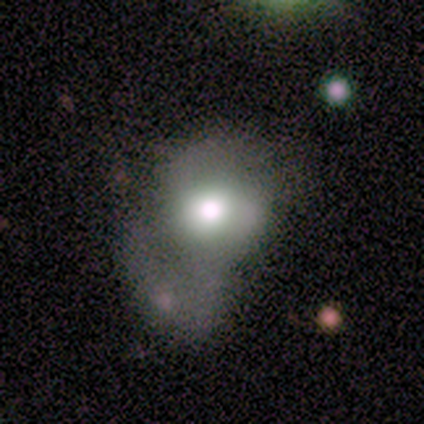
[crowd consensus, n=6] A smooth galaxy with no disk features (67%) that is round (50%, tied with in between).

Vote fractions:
- Smooth or featured? smooth: 67% / featured or disk: 33% / star or artifact: 0%
- How rounded? round: 50% (tied) / in between: 50% (tied) / cigar-shaped: 0%
- Merging? major disturbance: 50% / none: 17% / minor disturbance: 17% / merger: 17%